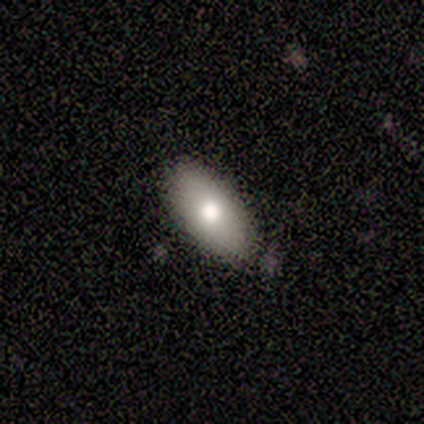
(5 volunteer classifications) smooth_or_featured: smooth (p=0.60) [alt: featured or disk p=0.20]
how_rounded: in between (p=1.00)
merging: none (p=0.75) [alt: minor disturbance p=0.25]